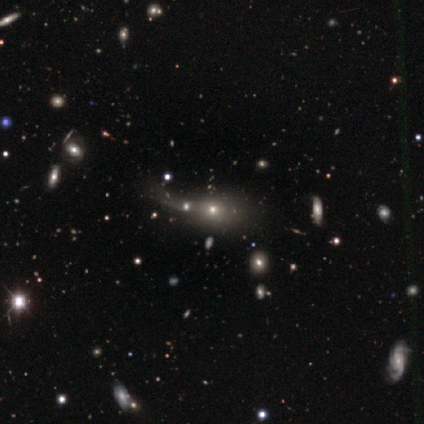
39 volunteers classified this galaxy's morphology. A smooth galaxy with no disk features (44%) that is in between round and cigar-shaped (59%). Merging: merger (46%).